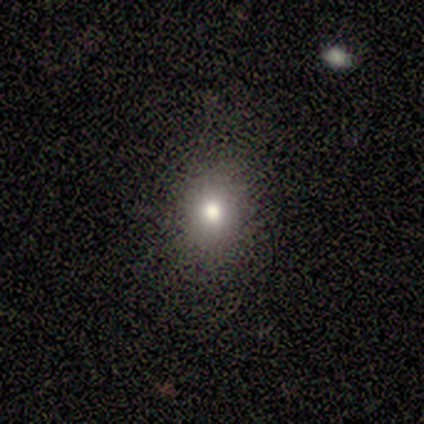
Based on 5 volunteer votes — Morphology: type=smooth (60%); roundness=round (33%, tied with in between and cigar-shaped); merging=none (33%, tied with minor disturbance and major disturbance).